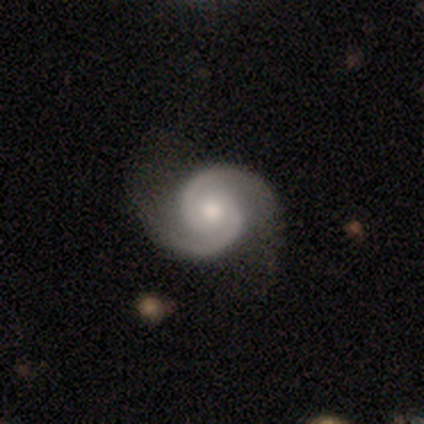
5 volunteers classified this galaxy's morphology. Smooth or featured? 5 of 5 (100%) said featured or disk. Edge-on disk? 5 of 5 (100%) said no. Bar? 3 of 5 (60%) said no. Spiral arms? 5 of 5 (100%) said yes. Spiral winding? 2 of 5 (40%, tied with loose) said medium. Spiral arm count? 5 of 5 (100%) said 2. Bulge size? 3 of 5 (60%) said moderate. Merging? 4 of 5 (80%) said none.